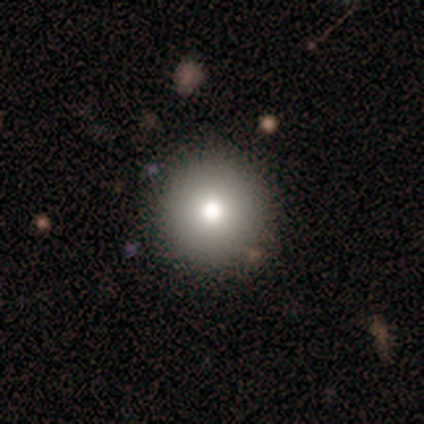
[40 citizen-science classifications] A smooth galaxy with no disk features (68%) that is round (100%).

Vote fractions:
- Smooth or featured? smooth: 68% / star or artifact: 25% / featured or disk: 8%
- How rounded? round: 100% / in between: 0% / cigar-shaped: 0%
- Merging? none: 83% / minor disturbance: 10% / major disturbance: 7% / merger: 0%